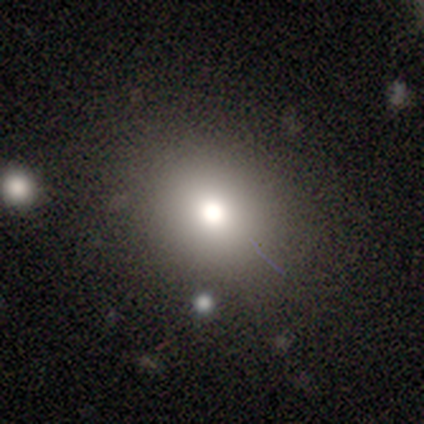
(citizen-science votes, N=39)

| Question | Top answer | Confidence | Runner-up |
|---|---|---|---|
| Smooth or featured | smooth | 67% | star or artifact (18%) |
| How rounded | round | 81% | in between (19%) |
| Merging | none | 69% | minor disturbance (28%) |